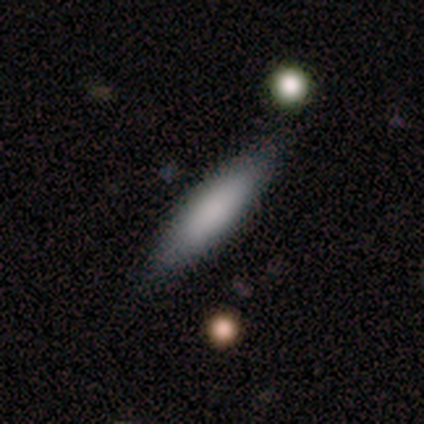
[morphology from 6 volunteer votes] smooth_or_featured: smooth (p=0.67) [alt: featured or disk p=0.33]
how_rounded: in between (p=1.00)
merging: none (p=0.83) [alt: minor disturbance p=0.17]